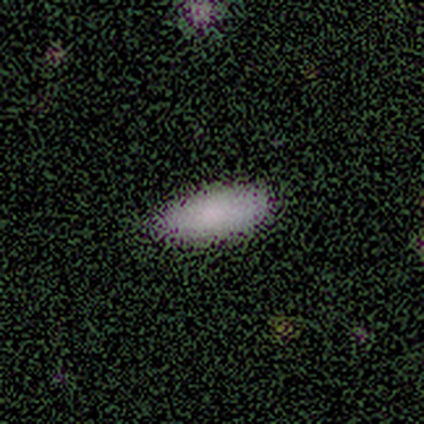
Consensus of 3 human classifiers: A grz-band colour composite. It shows a smooth galaxy with no disk features (100%) that is in between round and cigar-shaped (100%). Merging: none (67%).